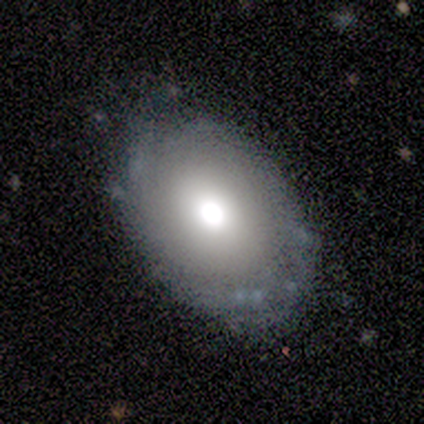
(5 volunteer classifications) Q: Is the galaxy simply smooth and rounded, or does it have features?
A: featured or disk — 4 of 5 (80%).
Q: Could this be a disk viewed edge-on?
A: no — 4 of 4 (100%).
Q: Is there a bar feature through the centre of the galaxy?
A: no — 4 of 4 (100%).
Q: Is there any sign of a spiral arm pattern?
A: no — 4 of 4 (100%).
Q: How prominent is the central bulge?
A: large — 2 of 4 (50%).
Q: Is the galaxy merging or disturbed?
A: none — 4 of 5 (80%).